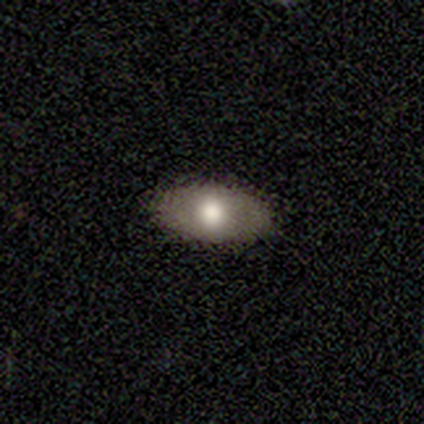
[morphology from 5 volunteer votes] Q: Smooth or featured?
A: smooth (40%); tied with: featured or disk (40%)
Q: How rounded?
A: in between (100%)
Q: Merging?
A: none (100%)